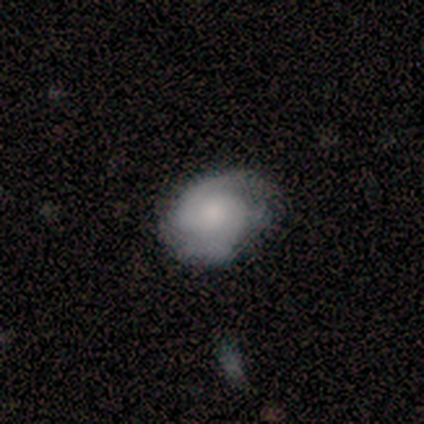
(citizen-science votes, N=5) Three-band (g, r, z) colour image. It shows a featured or disk galaxy (60%) with no bar (67%), 2 (67%) tight (67%) spiral arms (100%) and a moderate central bulge (33%, tied with small and none). Merging: none (60%).